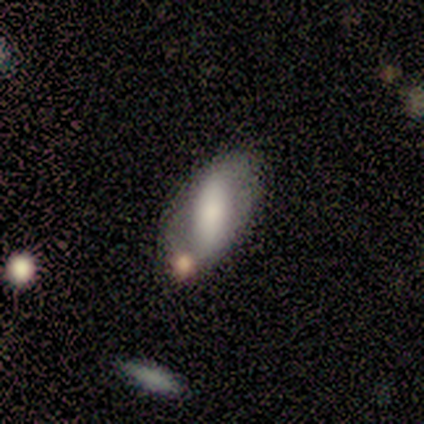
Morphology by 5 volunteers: Smooth or featured? 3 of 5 (60%) said smooth. How rounded? 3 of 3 (100%) said in between. Merging? 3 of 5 (60%) said none.